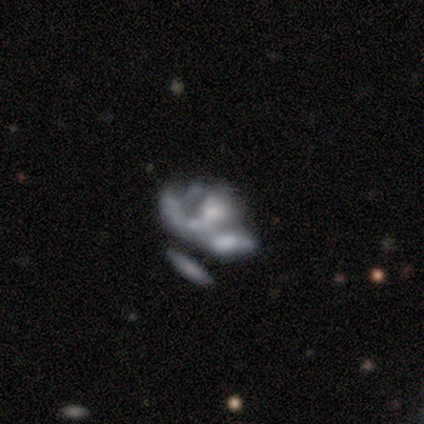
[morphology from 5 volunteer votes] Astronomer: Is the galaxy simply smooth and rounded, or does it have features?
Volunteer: featured or disk — 60%.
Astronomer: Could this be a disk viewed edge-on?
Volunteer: no — 100%.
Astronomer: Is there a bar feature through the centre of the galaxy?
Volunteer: no — 100%.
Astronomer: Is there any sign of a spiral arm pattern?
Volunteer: no — 100%.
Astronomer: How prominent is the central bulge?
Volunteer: moderate — 33%, tied with small and none at 33%.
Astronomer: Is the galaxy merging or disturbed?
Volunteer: major disturbance — 75%.